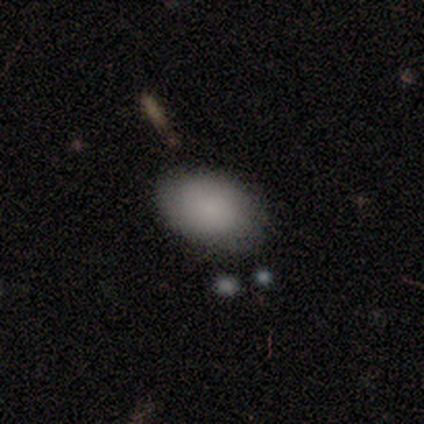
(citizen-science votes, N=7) Q: Smooth or featured?
A: smooth (86%); runner-up: featured or disk (14%)
Q: How rounded?
A: in between (83%); runner-up: round (17%)
Q: Merging?
A: none (100%)